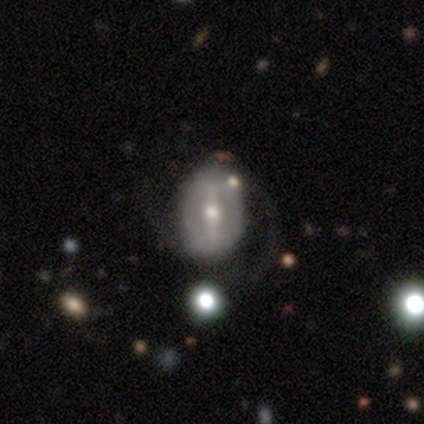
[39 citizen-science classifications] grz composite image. It shows a featured or disk galaxy (79%) with a strong bar (55%), no spiral arms (52%) and a moderate central bulge (66%). Merging: none (68%).